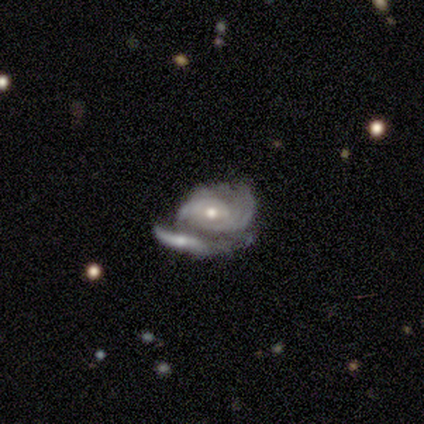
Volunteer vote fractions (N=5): Smooth or featured? featured or disk (80%)
Edge-on disk? no (100%)
Bar? weak (50%, tied with no)
Spiral arms? yes (75%)
Spiral winding? medium (100%)
Spiral arm count? 2 (67%)
Bulge size? moderate (75%)
Merging? merger (60%)